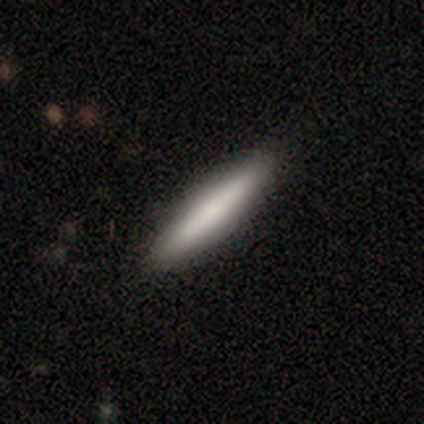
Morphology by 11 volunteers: A smooth galaxy with no disk features (64%) that is cigar-shaped (100%).

Vote fractions:
- Smooth or featured? smooth: 64% / featured or disk: 18% / star or artifact: 18%
- How rounded? cigar-shaped: 100% / round: 0% / in between: 0%
- Merging? none: 78% / minor disturbance: 11% / merger: 11% / major disturbance: 0%